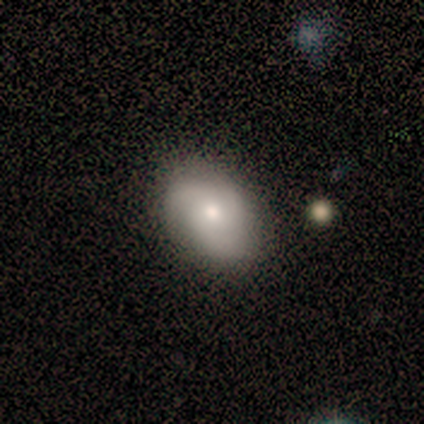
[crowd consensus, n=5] Volunteers were most divided on "smooth or featured": smooth: 60%, featured or disk: 40%, star or artifact: 0%. More confident: how rounded — in between (100%); merging — none (60%).